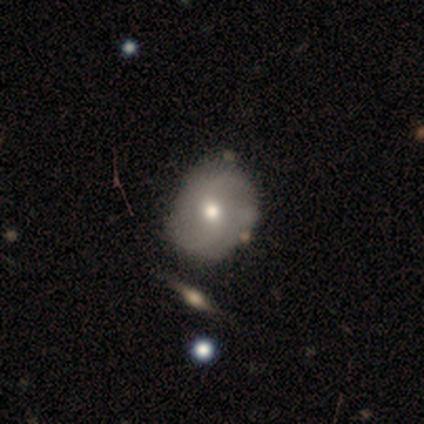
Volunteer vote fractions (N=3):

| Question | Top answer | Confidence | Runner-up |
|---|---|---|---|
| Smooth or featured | featured or disk | 100% | — |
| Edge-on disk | no | 67% | yes (33%) |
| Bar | no | 100% | — |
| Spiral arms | yes | 50% | tied: no (50%) |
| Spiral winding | loose | 100% | — |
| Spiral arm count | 2 | 100% | — |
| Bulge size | large | 50% | tied: none (50%) |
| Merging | none | 67% | major disturbance (33%) |